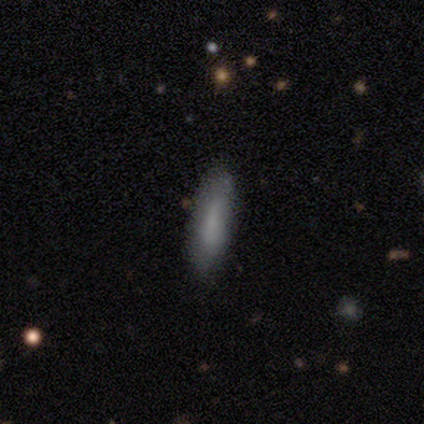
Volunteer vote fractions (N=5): A smooth galaxy with no disk features (80%) that is cigar-shaped (100%).

Vote fractions:
- Smooth or featured? smooth: 80% / featured or disk: 20% / star or artifact: 0%
- How rounded? cigar-shaped: 100% / round: 0% / in between: 0%
- Merging? none: 60% / minor disturbance: 40% / major disturbance: 0% / merger: 0%